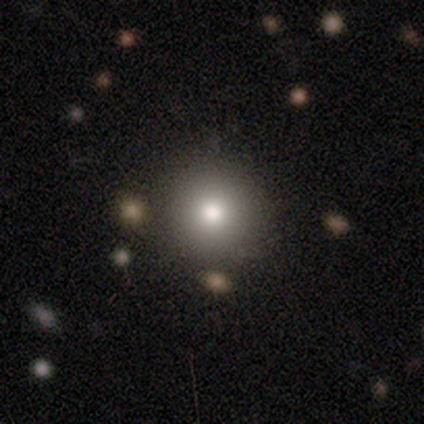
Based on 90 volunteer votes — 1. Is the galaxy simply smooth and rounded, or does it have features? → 77% smooth, 16% star or artifact, 8% featured or disk.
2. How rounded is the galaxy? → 96% round, 4% in between, 0% cigar-shaped.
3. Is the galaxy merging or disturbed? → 91% none, 7% minor disturbance, 3% merger, 0% major disturbance.